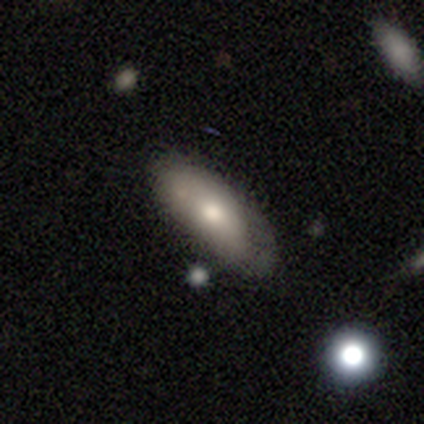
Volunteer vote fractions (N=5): This appears to be a smooth galaxy with no disk features (100%) that is in between round and cigar-shaped (100%). Merging: none (40%, tied with minor disturbance).